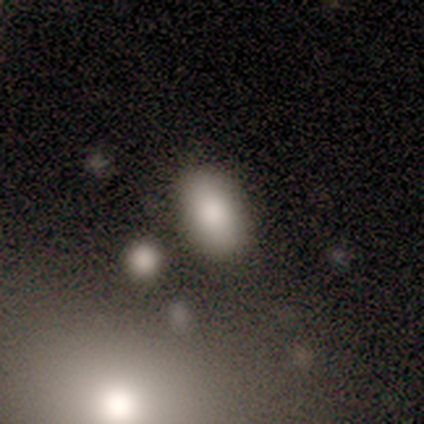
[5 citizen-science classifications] smooth-or-featured: smooth: 100% | featured or disk: 0% | star or artifact: 0%
  how-rounded: in between: 100% | round: 0% | cigar-shaped: 0%
  merging: none: 80% | minor disturbance: 20% | major disturbance: 0% | merger: 0%